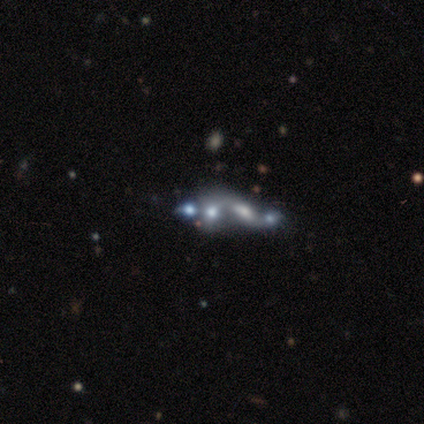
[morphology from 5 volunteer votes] Smooth or featured? featured or disk (60%)
Edge-on disk? no (100%)
Bar? no (100%)
Spiral arms? no (100%)
Bulge size? small (67%)
Merging? merger (75%)